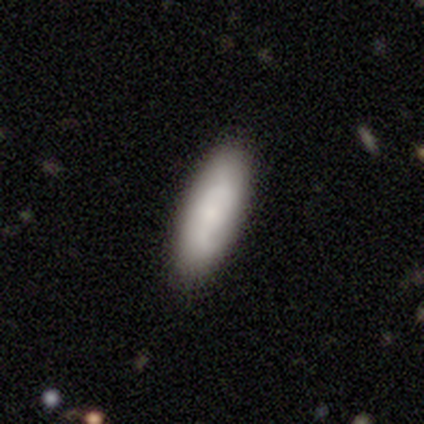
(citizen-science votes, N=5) Smooth or featured: smooth — 80% (featured or disk — 20%)
How rounded: in between — 50% (round — 25%)
Merging: none — 80% (minor disturbance — 20%)